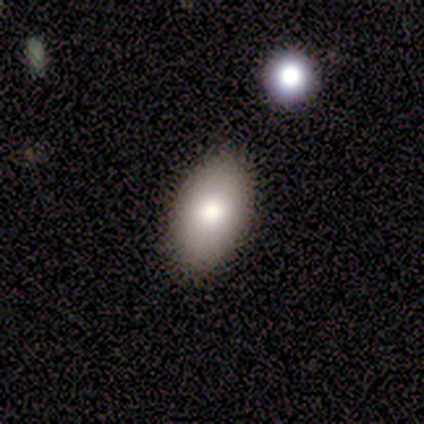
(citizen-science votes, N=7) Smooth or featured?
  - smooth: 71% *
  - featured or disk: 29%
  - star or artifact: 0%
How rounded?
  - in between: 100% *
  - round: 0%
  - cigar-shaped: 0%
Merging?
  - none: 71% *
  - minor disturbance: 29%
  - major disturbance: 0%
  - merger: 0%